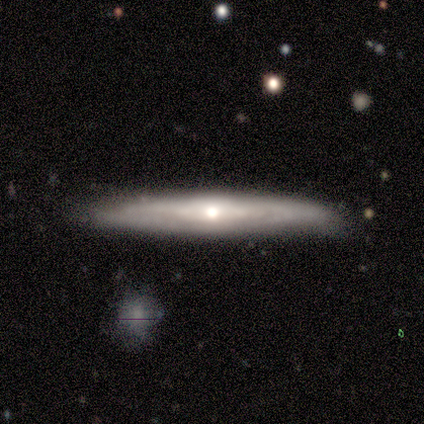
This is likely a featured or disk galaxy (60%). It is likely viewed edge-on (67%). Edge-on bulge: clearly rounded (100%). Merging: clearly none (80%).